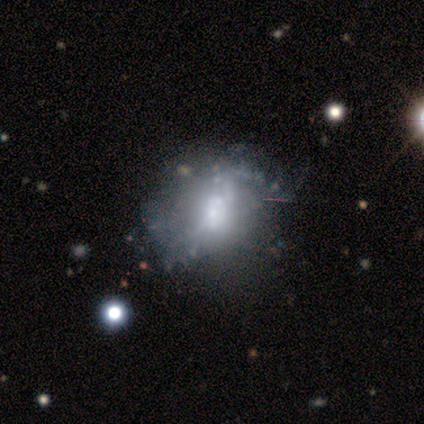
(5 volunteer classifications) Overall: featured or disk (60%; smooth 20%). Edge-on disk: no (100%). Bar: no (67%; weak 33%). Spiral arms: no (100%). Bulge size: moderate (33%, tied with small and none). Merging: none (75%).